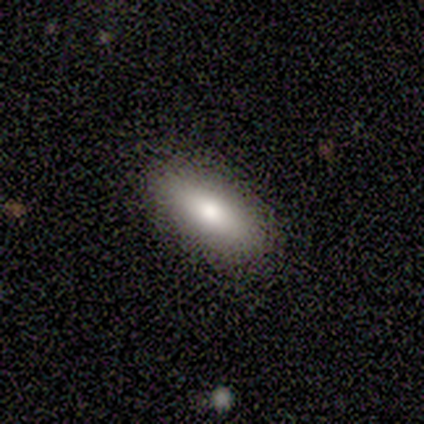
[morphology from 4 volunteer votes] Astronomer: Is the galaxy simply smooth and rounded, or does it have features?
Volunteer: smooth — 50%.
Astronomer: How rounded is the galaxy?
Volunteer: in between — 100%.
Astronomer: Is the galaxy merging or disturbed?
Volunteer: none — 100%.